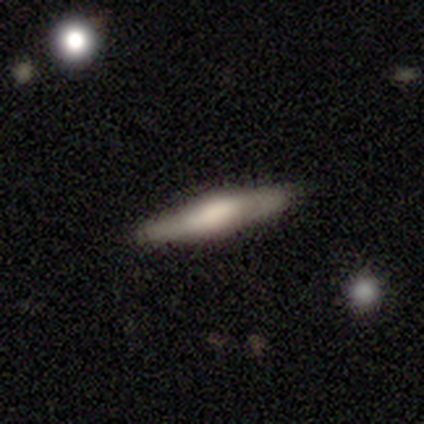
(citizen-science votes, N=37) Smooth or featured? featured or disk (62%)
Edge-on disk? yes (91%)
Edge-on bulge? rounded (48%)
Merging? none (92%)